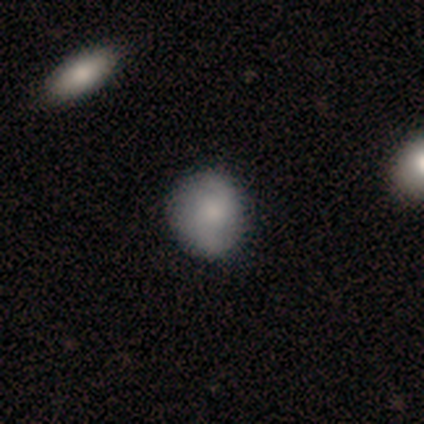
This is likely a smooth galaxy (62%). How rounded: likely round (65%). Merging: clearly none (83%).